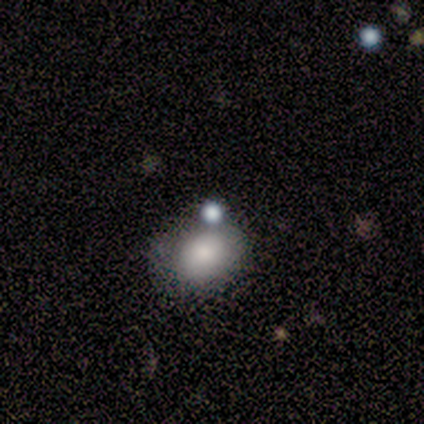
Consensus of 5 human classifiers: Smooth or featured: smooth — 60% (featured or disk — 20%)
How rounded: in between — 67% (round — 33%)
Merging: none — 75% (minor disturbance — 25%)